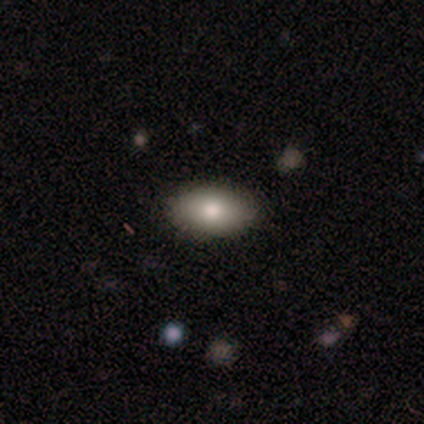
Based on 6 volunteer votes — smooth-or-featured: smooth: 100% | featured or disk: 0% | star or artifact: 0%
  how-rounded: in between: 83% | round: 17% | cigar-shaped: 0%
  merging: none: 100% | minor disturbance: 0% | major disturbance: 0% | merger: 0%